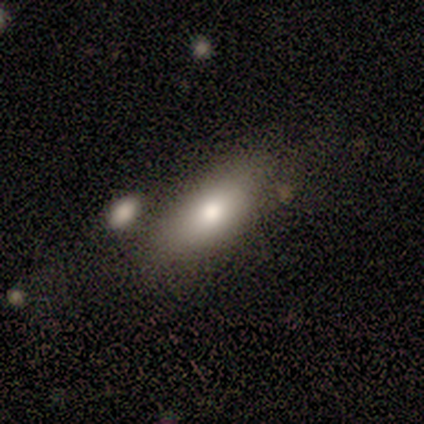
Smooth or featured?
  - smooth: 75% *
  - featured or disk: 25%
  - star or artifact: 0%
How rounded?
  - in between: 83% *
  - round: 17%
  - cigar-shaped: 0%
Merging?
  - none: 88% *
  - merger: 12%
  - minor disturbance: 0%
  - major disturbance: 0%